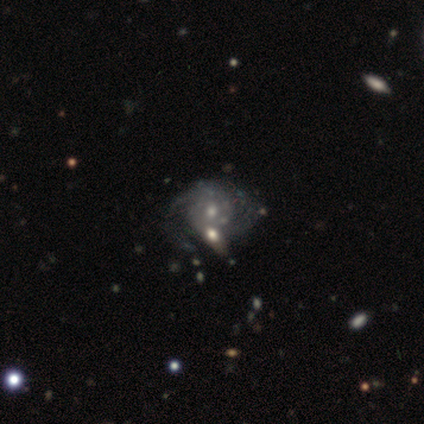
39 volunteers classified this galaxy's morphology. smooth_or_featured: featured or disk (p=0.77) [alt: star or artifact p=0.13]
disk_edge_on: no (p=1.00)
bar: no (p=0.60) [alt: weak p=0.37]
has_spiral_arms: yes (p=0.80) [alt: no p=0.20]
spiral_winding: tight (p=0.62) [alt: medium p=0.33]
spiral_arm_count: 2 (p=0.62) [alt: can't tell p=0.33]
bulge_size: small (p=0.63) [alt: moderate p=0.37]
merging: none (p=0.44) [alt: minor disturbance p=0.29]